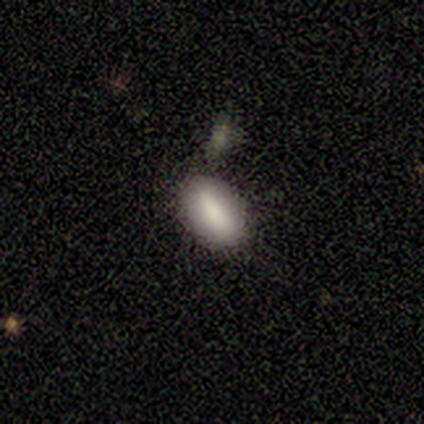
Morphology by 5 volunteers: type=smooth (80%); roundness=in between (100%); merging=none (60%).